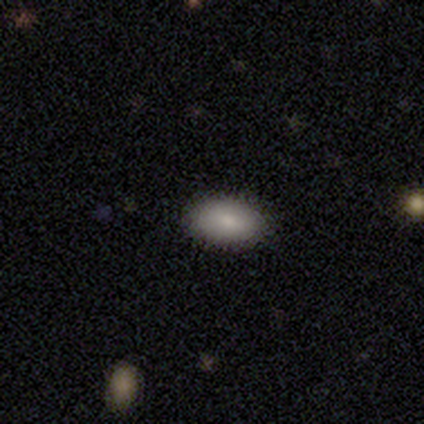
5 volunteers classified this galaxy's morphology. Smooth or featured? 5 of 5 (100%) said smooth. How rounded? 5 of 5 (100%) said in between. Merging? 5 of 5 (100%) said none.